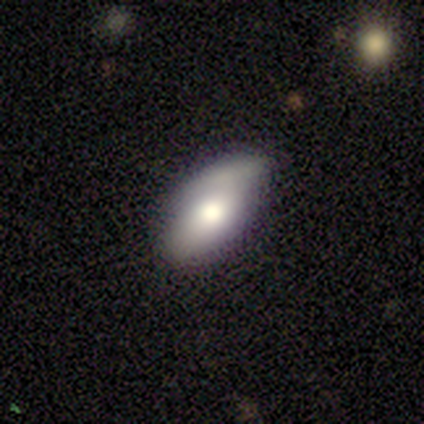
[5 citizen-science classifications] Smooth or featured? 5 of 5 (100%) said smooth. How rounded? 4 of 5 (80%) said in between. Merging? 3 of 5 (60%) said minor disturbance.